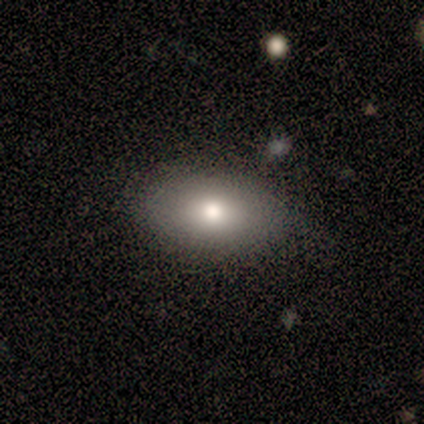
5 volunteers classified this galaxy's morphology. Overall: smooth (100%). How rounded: in between (100%). Merging: none (40%, tied with major disturbance).